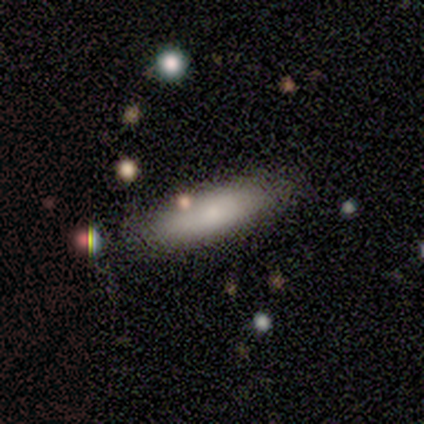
This appears to be a smooth galaxy with no disk features (67%) that is cigar-shaped (100%). Merging: none (67%).